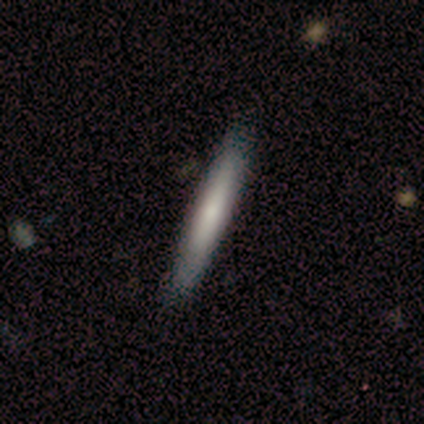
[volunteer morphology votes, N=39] smooth_or_featured: smooth (p=0.62) [alt: featured or disk p=0.28]
how_rounded: cigar-shaped (p=0.96) [alt: in between p=0.04]
merging: none (p=0.66)